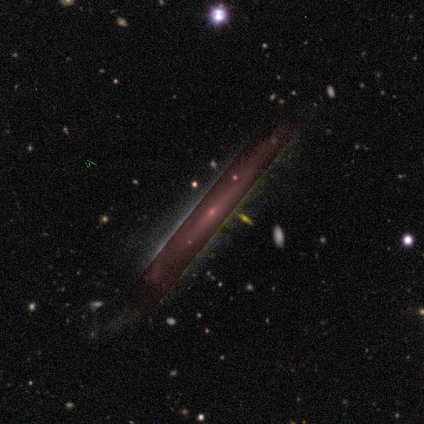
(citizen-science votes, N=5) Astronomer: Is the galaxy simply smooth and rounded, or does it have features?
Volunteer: smooth — 40%, tied with star or artifact at 40%.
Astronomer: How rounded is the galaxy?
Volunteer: round — 50%, tied with cigar-shaped at 50%.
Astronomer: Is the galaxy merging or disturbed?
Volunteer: none — 67%.